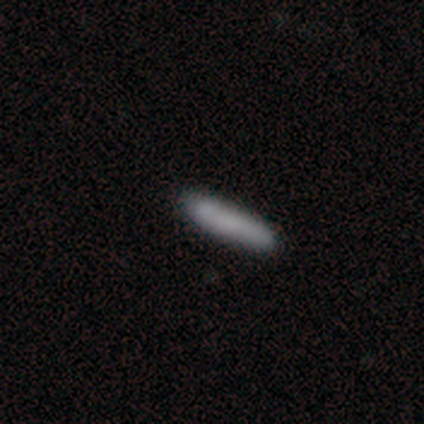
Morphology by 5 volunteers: Q: Smooth or featured?
A: smooth (100%)
Q: How rounded?
A: cigar-shaped (60%); runner-up: in between (40%)
Q: Merging?
A: none (100%)